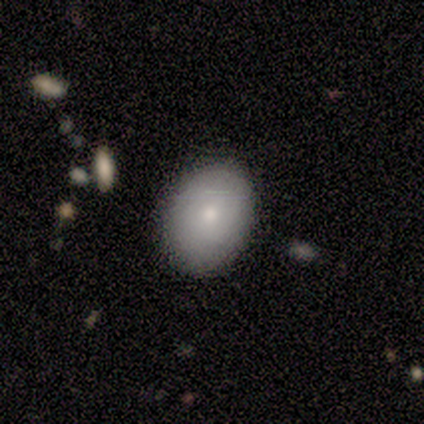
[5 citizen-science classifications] smooth-or-featured: smooth: 100% | featured or disk: 0% | star or artifact: 0%
  how-rounded: in between: 60% | round: 40% | cigar-shaped: 0%
  merging: none: 60% | minor disturbance: 40% | major disturbance: 0% | merger: 0%